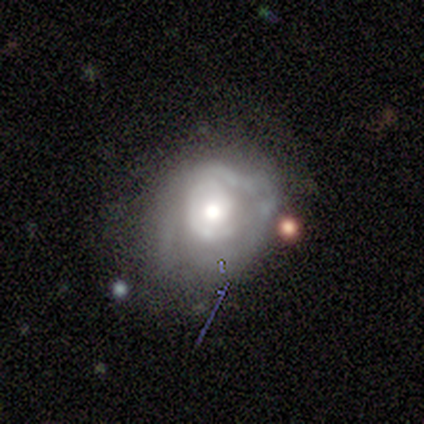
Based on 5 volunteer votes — Overall: featured or disk (80%). Edge-on disk: no (100%). Bar: no (75%). Spiral arms: yes (75%). Spiral arm count: 2 (33%, tied with 3 and can't tell). Spiral winding: tight (33%, tied with medium and loose). Bulge size: large (50%, tied with moderate). Merging: minor disturbance (40%, tied with major disturbance).